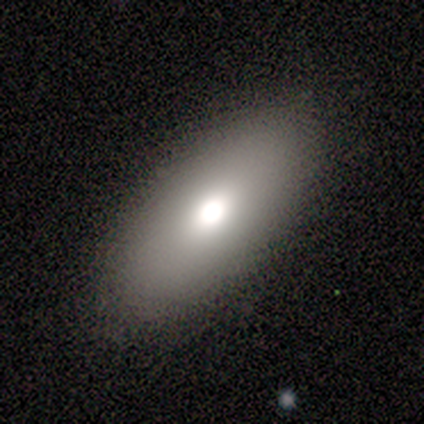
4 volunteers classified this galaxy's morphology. This appears to be a smooth galaxy with no disk features (75%) that is in between round and cigar-shaped (67%). Merging: none (50%, tied with minor disturbance).